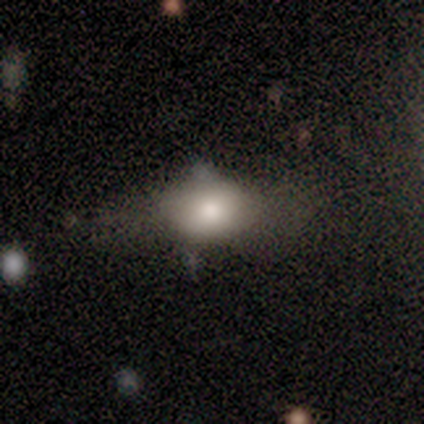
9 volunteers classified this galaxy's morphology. Overall: smooth (67%). How rounded: in between (83%). Merging: none (50%; minor disturbance 25%).